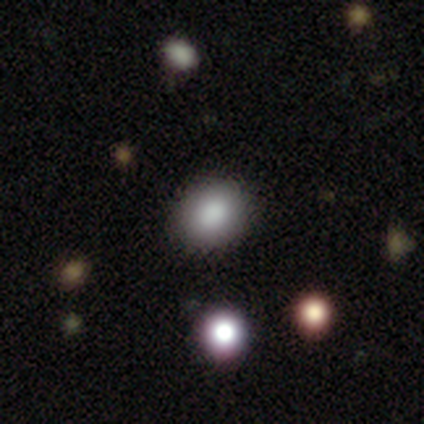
This appears to be a smooth galaxy with no disk features (72%) that is round (66%). Merging: none (84%).